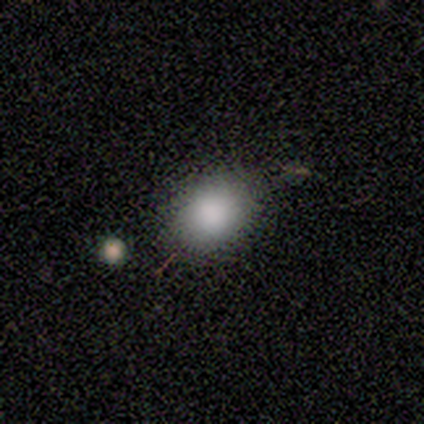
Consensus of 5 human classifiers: Smooth or featured?
  - smooth: 100% *
  - featured or disk: 0%
  - star or artifact: 0%
How rounded?
  - in between: 60% *
  - round: 40%
  - cigar-shaped: 0%
Merging?
  - none: 100% *
  - minor disturbance: 0%
  - major disturbance: 0%
  - merger: 0%